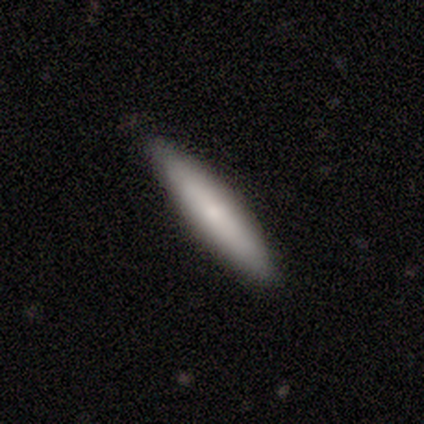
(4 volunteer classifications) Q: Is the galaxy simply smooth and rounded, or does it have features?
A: smooth — 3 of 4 (75%).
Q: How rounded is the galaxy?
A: cigar-shaped — 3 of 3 (100%).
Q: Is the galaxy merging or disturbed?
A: none — 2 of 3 (67%).